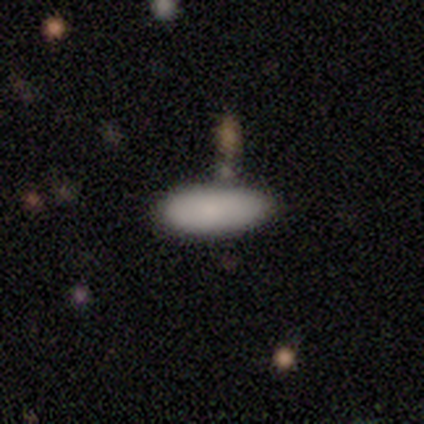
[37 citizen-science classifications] smooth_or_featured: smooth (p=0.86) [alt: star or artifact p=0.08]
how_rounded: in between (p=0.69) [alt: cigar-shaped p=0.28]
merging: none (p=0.56) [alt: minor disturbance p=0.32]